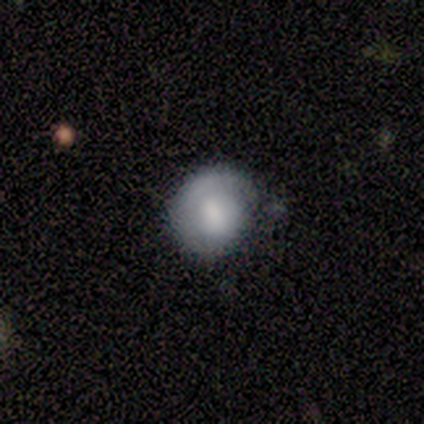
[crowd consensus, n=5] smooth 80%, featured or disk 20%, star or artifact 0%. Down the decision tree: how rounded — round (100%); merging — none (40%, tied with minor disturbance).